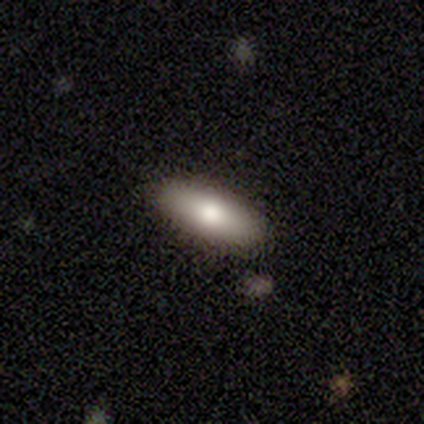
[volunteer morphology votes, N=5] Q: Smooth or featured?
A: smooth (100%)
Q: How rounded?
A: in between (80%); runner-up: cigar-shaped (20%)
Q: Merging?
A: none (80%); runner-up: merger (20%)